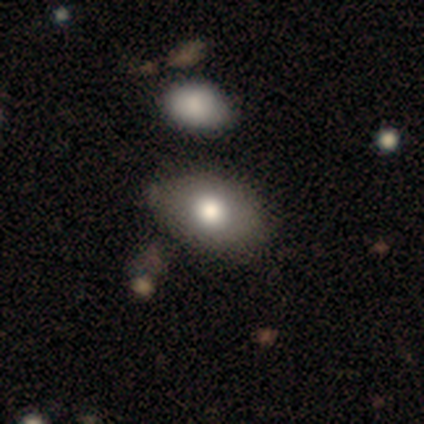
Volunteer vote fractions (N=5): Smooth or featured?
  - smooth: 80% *
  - star or artifact: 20%
  - featured or disk: 0%
How rounded?
  - in between: 100% *
  - round: 0%
  - cigar-shaped: 0%
Merging?
  - none: 75% *
  - minor disturbance: 25%
  - major disturbance: 0%
  - merger: 0%